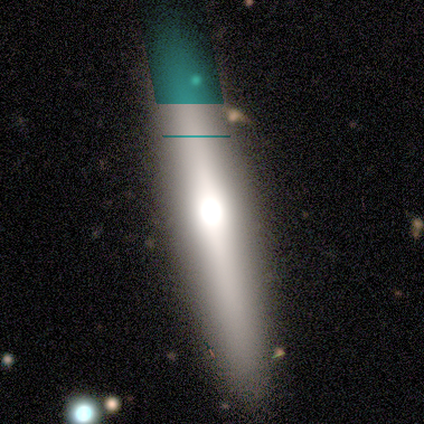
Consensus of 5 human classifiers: This is clearly a smooth galaxy (80%). How rounded: likely cigar-shaped (75%). Merging: likely none (60%).